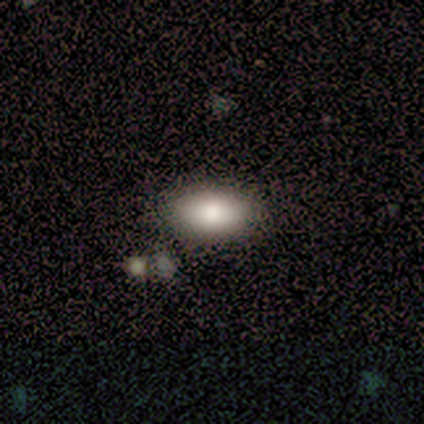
This appears to be a smooth galaxy with no disk features (100%) that is in between round and cigar-shaped (100%). Merging: none (83%).